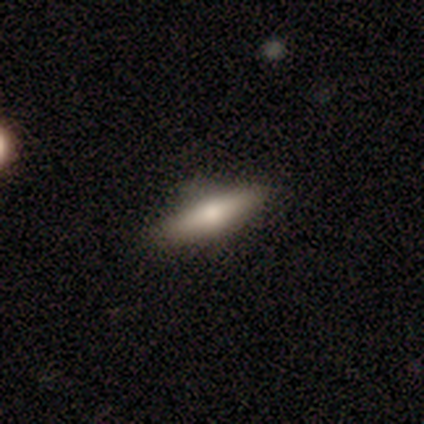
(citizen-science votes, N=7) This appears to be a smooth galaxy with no disk features (71%) that is cigar-shaped (80%). Merging: none (100%).